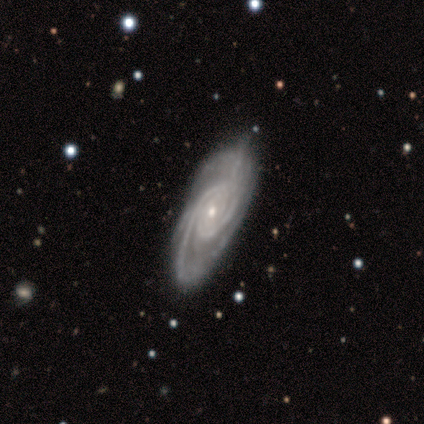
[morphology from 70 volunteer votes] Smooth or featured? 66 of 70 (94%) said featured or disk. Edge-on disk? 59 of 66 (89%) said no. Bar? 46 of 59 (78%) said no. Spiral arms? 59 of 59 (100%) said yes. Spiral winding? 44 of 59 (75%) said tight. Spiral arm count? 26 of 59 (44%) said 2. Bulge size? 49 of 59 (83%) said small. Merging? 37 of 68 (54%) said none.